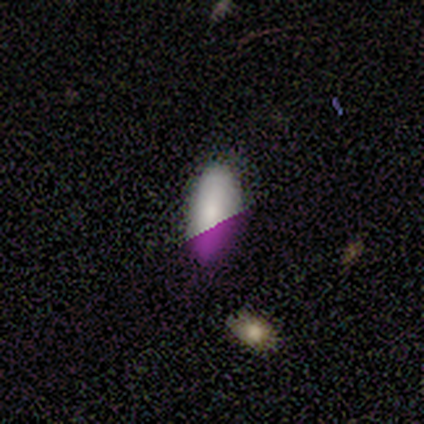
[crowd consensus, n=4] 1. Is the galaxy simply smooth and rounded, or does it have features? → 50% smooth (tied), 50% star or artifact (tied), 0% featured or disk.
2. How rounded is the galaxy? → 50% in between (tied), 50% cigar-shaped (tied), 0% round.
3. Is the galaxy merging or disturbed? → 50% none (tied), 50% minor disturbance (tied), 0% major disturbance, 0% merger.